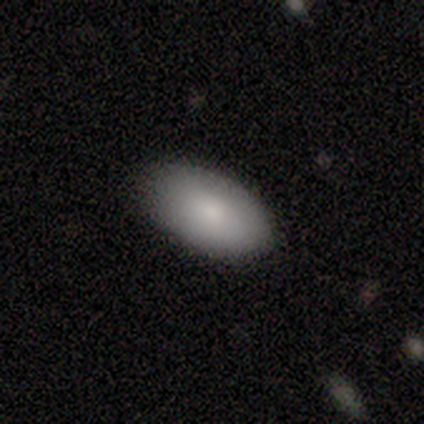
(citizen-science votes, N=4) smooth-or-featured: smooth: 100% | featured or disk: 0% | star or artifact: 0%
  how-rounded: in between: 100% | round: 0% | cigar-shaped: 0%
  merging: none: 100% | minor disturbance: 0% | major disturbance: 0% | merger: 0%